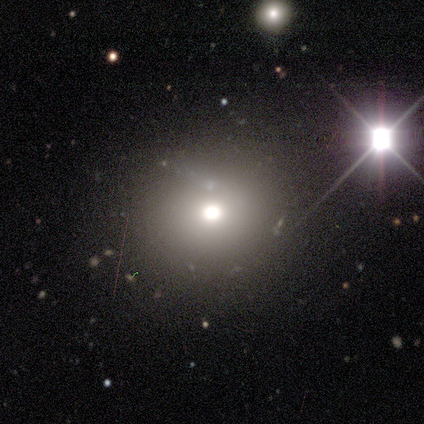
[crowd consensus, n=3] This is clearly a smooth galaxy (100%). How rounded: clearly round (100%). Merging: clearly none (100%).